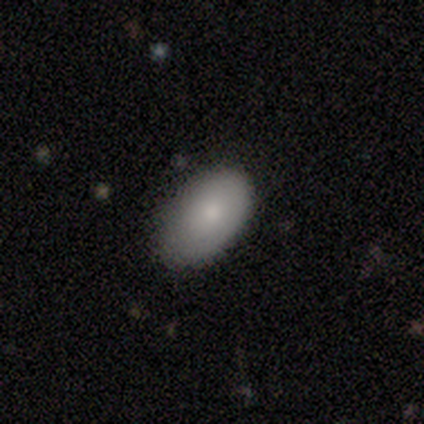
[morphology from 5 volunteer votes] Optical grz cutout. It shows a smooth galaxy with no disk features (80%) that is in between round and cigar-shaped (100%). Merging: none (80%).